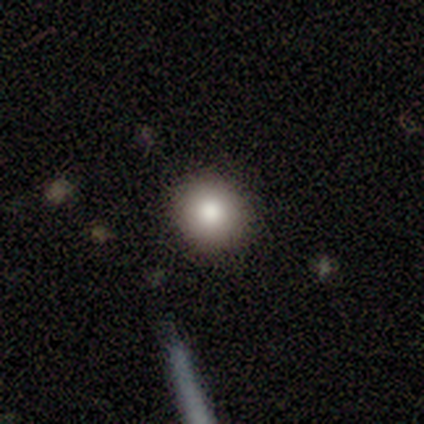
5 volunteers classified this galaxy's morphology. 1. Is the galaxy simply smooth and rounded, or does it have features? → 60% smooth, 20% featured or disk, 20% star or artifact.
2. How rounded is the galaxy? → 100% round, 0% in between, 0% cigar-shaped.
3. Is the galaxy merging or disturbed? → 100% none, 0% minor disturbance, 0% major disturbance, 0% merger.